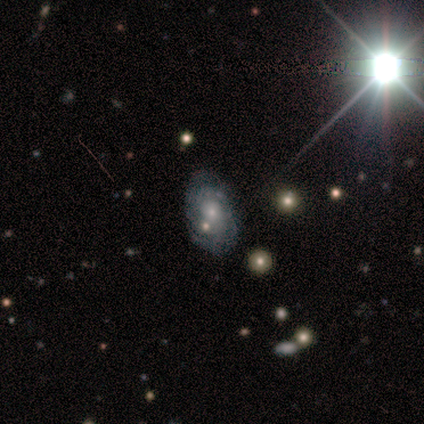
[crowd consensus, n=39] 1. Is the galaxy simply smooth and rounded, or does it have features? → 74% featured or disk, 15% star or artifact, 10% smooth.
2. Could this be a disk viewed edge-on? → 97% no, 3% yes.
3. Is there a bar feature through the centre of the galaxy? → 82% no, 18% weak, 0% strong.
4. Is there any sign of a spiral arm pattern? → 82% yes, 18% no.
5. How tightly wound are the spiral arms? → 70% tight, 26% medium, 4% loose.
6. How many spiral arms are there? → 52% can't tell, 26% 2, 9% 3, 4% 1, 4% 4, 4% more than 4.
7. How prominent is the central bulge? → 61% small, 36% moderate, 4% none, 0% dominant, 0% large.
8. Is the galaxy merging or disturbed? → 70% none, 15% minor disturbance, 9% major disturbance, 6% merger.